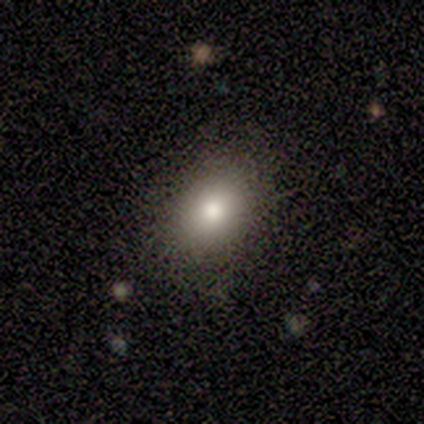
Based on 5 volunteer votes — This appears to be a smooth galaxy with no disk features (60%) that is round (67%). Merging: none (50%).